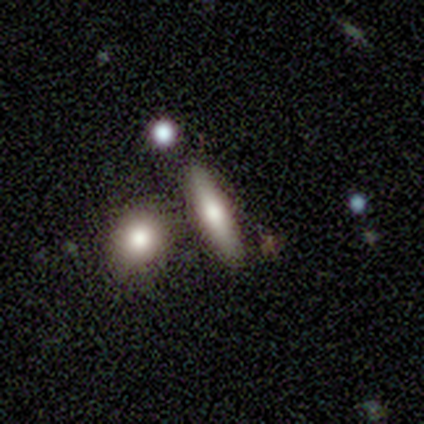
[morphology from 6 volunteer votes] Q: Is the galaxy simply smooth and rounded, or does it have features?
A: smooth — 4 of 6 (67%).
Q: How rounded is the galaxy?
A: cigar-shaped — 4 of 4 (100%).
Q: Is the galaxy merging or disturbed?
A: none — 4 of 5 (80%).